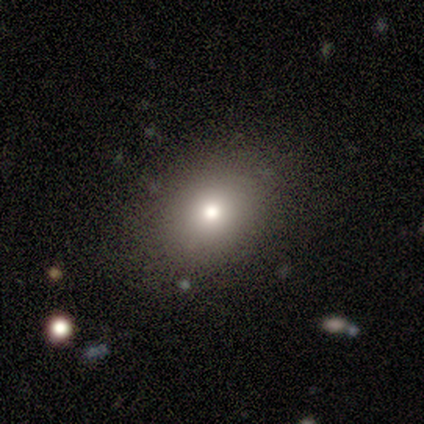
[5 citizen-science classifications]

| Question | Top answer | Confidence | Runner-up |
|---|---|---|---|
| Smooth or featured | smooth | 80% | featured or disk (20%) |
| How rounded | round | 50% | tied: in between (50%) |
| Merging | none | 100% | — |